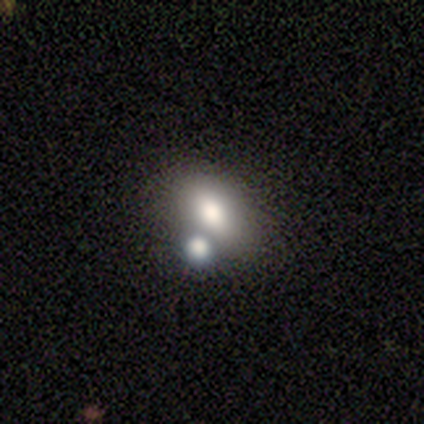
Smooth or featured: smooth — 60% (featured or disk — 20%)
How rounded: in between — 100%
Merging: none — 50% (minor disturbance — 25%)